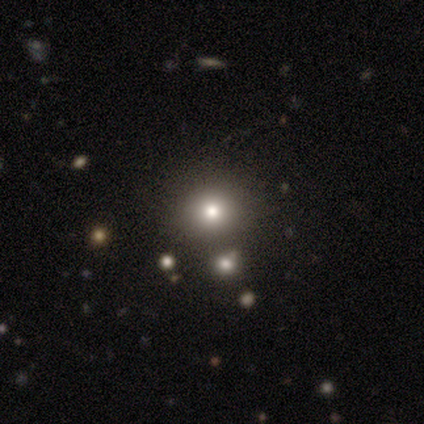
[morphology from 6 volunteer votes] A smooth galaxy with no disk features (50%) that is round (100%). Merging: none (75%).